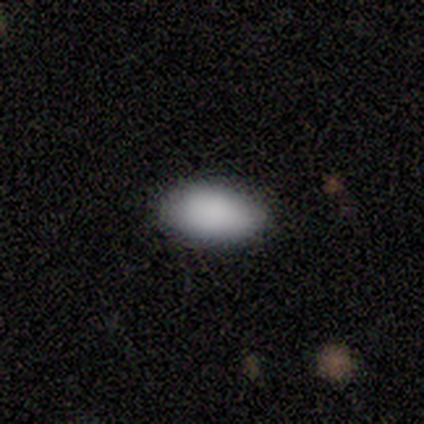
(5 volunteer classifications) Smooth or featured? smooth (100%)
How rounded? in between (100%)
Merging? none (60%)